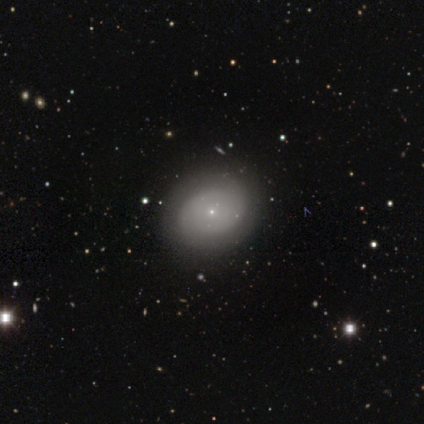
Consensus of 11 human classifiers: A smooth galaxy with no disk features (64%) that is in between round and cigar-shaped (71%).

Vote fractions:
- Smooth or featured? smooth: 64% / featured or disk: 27% / star or artifact: 9%
- How rounded? in between: 71% / round: 29% / cigar-shaped: 0%
- Merging? none: 70% / minor disturbance: 30% / major disturbance: 0% / merger: 0%